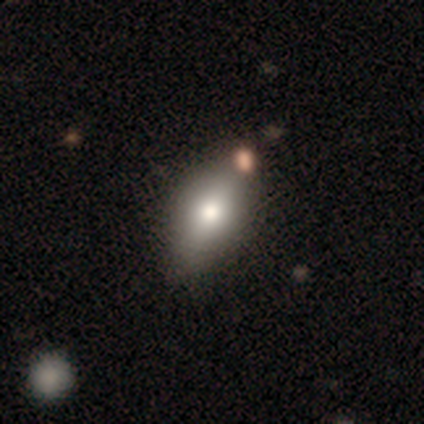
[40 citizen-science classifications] Overall: smooth (78%). How rounded: in between (97%). Merging: none (54%).